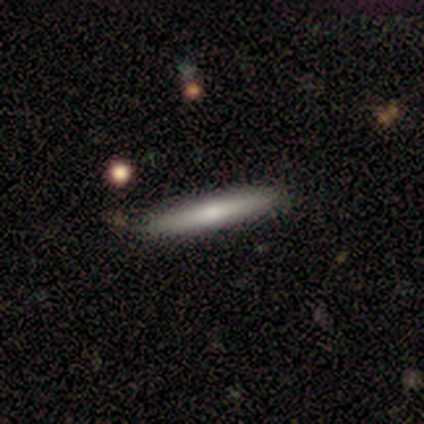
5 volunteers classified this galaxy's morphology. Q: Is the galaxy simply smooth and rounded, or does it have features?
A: smooth — 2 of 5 (40%, tied with star or artifact).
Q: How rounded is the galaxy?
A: cigar-shaped — 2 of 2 (100%).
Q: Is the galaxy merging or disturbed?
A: none — 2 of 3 (67%).